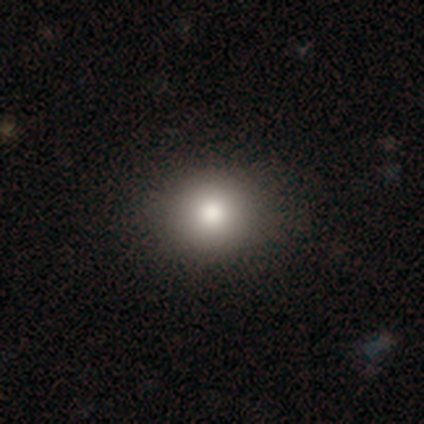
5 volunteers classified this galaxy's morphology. smooth 80%, featured or disk 20%, star or artifact 0%. Down the decision tree: how rounded — round (75%); merging — none (100%).